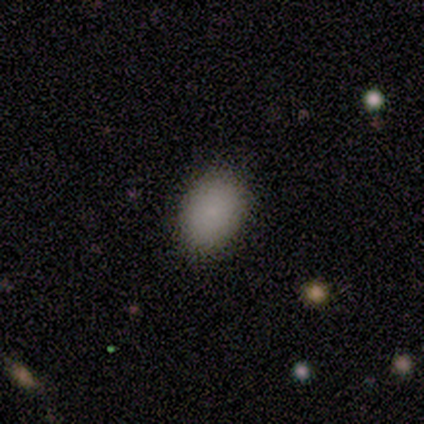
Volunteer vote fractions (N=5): This appears to be a smooth galaxy with no disk features (80%) that is in between round and cigar-shaped (75%). Merging: none (80%).